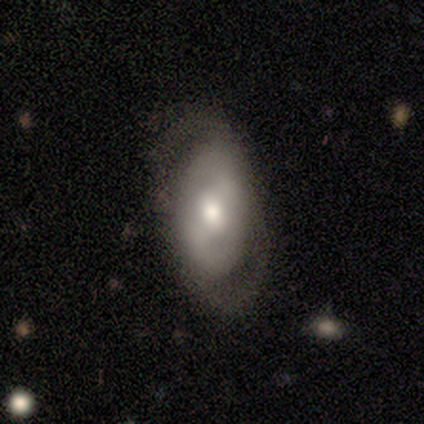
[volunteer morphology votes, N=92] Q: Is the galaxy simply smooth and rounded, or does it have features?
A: featured or disk — 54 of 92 (59%).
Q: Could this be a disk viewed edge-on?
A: no — 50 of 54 (93%).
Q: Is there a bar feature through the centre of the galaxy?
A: weak — 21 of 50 (42%).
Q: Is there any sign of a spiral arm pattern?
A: yes — 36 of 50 (72%).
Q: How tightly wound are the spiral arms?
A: medium — 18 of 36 (50%).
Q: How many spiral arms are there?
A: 2 — 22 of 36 (61%).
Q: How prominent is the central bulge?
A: moderate — 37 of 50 (74%).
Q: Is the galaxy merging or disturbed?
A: none — 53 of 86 (62%).